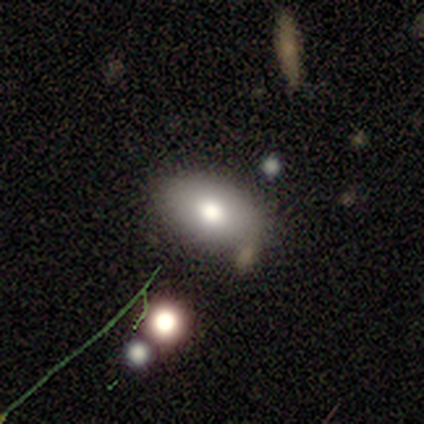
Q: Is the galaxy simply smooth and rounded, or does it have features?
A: smooth — 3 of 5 (60%).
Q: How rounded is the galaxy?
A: in between — 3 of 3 (100%).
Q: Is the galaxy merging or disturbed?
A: none — 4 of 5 (80%).